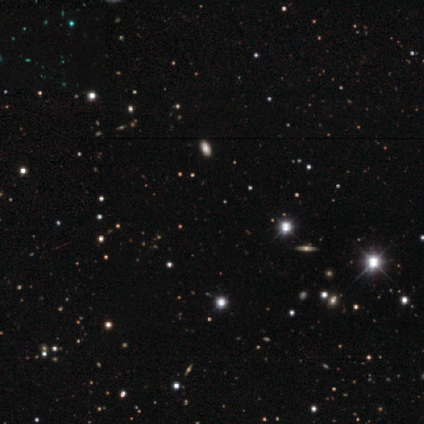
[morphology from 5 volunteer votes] Q: Smooth or featured?
A: star or artifact (80%); runner-up: smooth (20%)